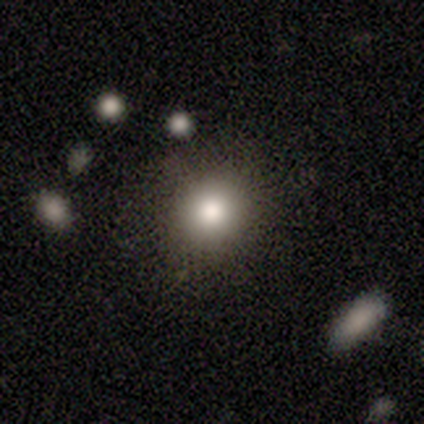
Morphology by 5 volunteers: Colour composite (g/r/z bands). It shows a smooth galaxy with no disk features (100%) that is round (100%). Merging: none (100%).